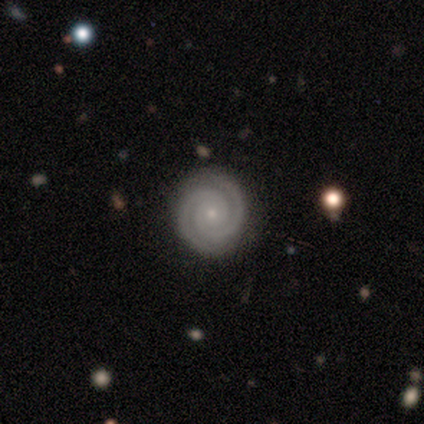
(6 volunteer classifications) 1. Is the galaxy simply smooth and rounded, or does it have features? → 100% featured or disk, 0% smooth, 0% star or artifact.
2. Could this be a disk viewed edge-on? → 100% no, 0% yes.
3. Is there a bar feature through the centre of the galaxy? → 83% no, 17% weak, 0% strong.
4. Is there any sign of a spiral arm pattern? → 100% yes, 0% no.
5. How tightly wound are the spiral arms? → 83% tight, 17% medium, 0% loose.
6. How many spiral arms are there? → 83% 2, 17% 3, 0% 1, 0% 4, 0% more than 4, 0% can't tell.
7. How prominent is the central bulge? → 100% small, 0% dominant, 0% large, 0% moderate, 0% none.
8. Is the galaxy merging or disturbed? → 100% none, 0% minor disturbance, 0% major disturbance, 0% merger.